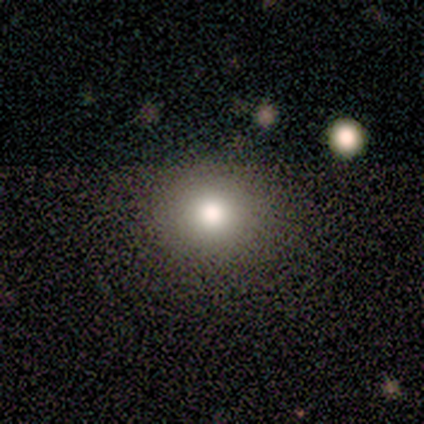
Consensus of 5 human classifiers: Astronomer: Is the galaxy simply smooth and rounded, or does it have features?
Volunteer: star or artifact — 60%.